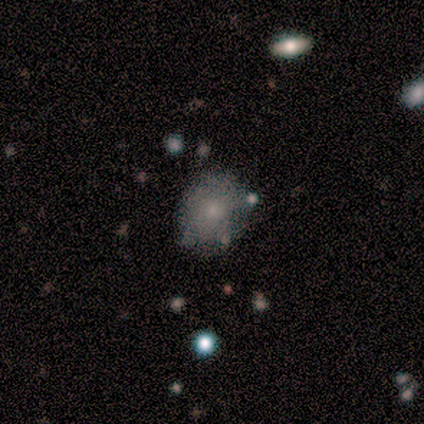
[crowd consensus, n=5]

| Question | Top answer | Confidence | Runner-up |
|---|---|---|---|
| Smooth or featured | smooth | 60% | star or artifact (40%) |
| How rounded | round | 67% | in between (33%) |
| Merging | none | 67% | minor disturbance (33%) |